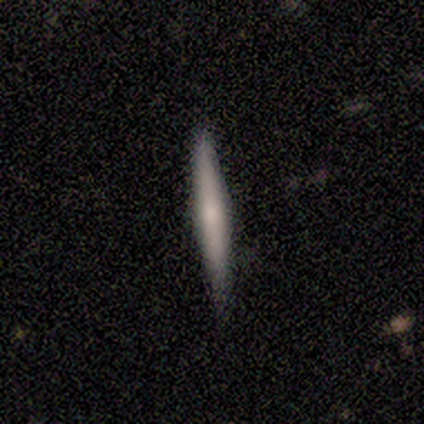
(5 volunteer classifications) This appears to be a featured or disk galaxy (60%) viewed edge-on (100%) with no central bulge (67%). Merging: none (100%).